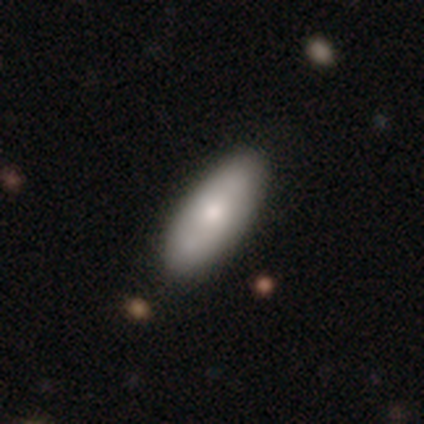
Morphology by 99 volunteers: Smooth or featured?
  - smooth: 68% *
  - featured or disk: 24%
  - star or artifact: 8%
How rounded?
  - in between: 73% *
  - cigar-shaped: 27%
  - round: 0%
Merging?
  - none: 91% *
  - minor disturbance: 9%
  - major disturbance: 0%
  - merger: 0%